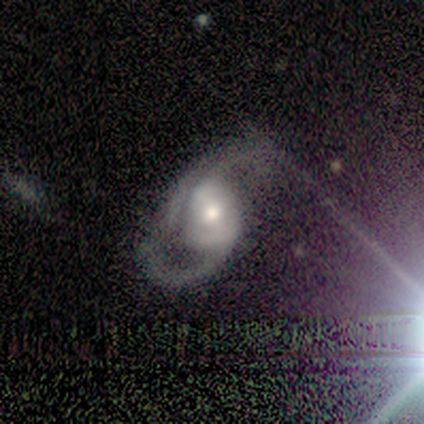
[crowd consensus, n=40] Overall: featured or disk (85%). Edge-on disk: no (100%). Bar: no (53%; strong 24%). Spiral arms: yes (94%). Spiral arm count: 2 (88%). Spiral winding: loose (59%; medium 38%). Bulge size: moderate (79%). Merging: none (42%; major disturbance 33%).